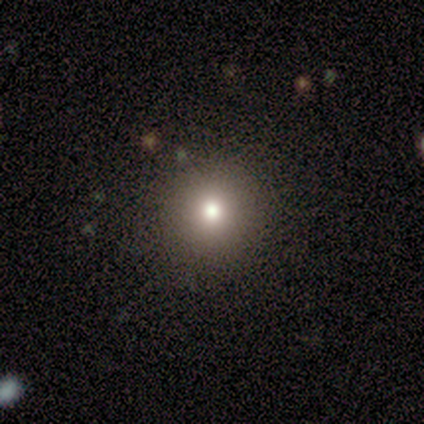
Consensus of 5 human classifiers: Morphology: type=smooth (80%); roundness=round (100%); merging=none (100%).